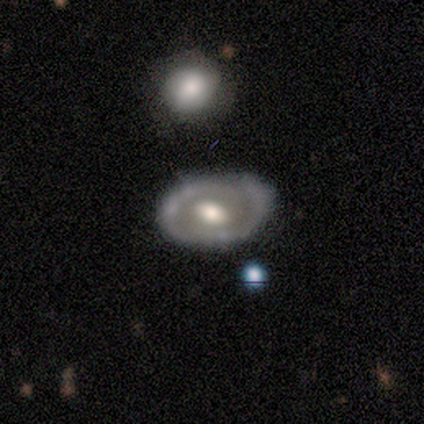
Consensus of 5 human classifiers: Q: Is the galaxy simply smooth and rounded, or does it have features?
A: featured or disk — 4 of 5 (80%).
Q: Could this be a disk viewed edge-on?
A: no — 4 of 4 (100%).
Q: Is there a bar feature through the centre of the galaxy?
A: no — 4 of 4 (100%).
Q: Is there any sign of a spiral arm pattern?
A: yes — 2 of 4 (50%, tied with no).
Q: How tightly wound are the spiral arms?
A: tight — 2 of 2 (100%).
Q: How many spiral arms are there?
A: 1 — 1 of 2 (50%, tied with 2).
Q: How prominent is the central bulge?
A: large — 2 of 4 (50%, tied with moderate).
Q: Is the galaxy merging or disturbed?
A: none — 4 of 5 (80%).